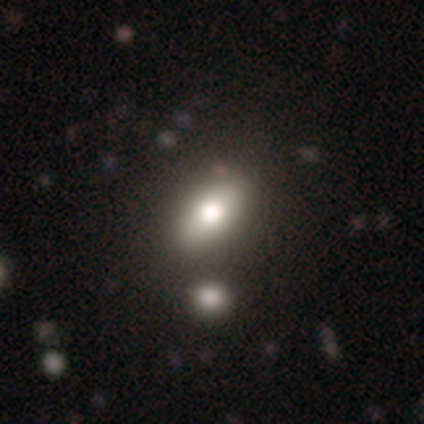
This is clearly a smooth galaxy (80%). How rounded: clearly in between (100%). Merging: likely none (60%).